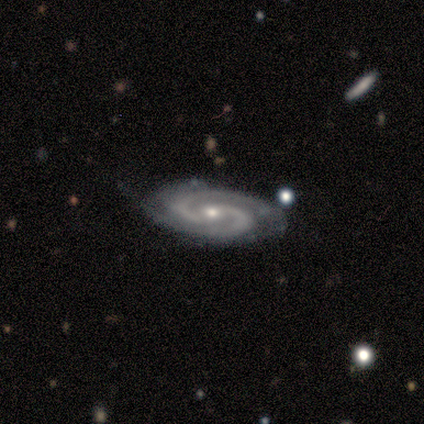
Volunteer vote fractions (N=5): Q: Smooth or featured?
A: featured or disk (80%); runner-up: smooth (20%)
Q: Edge-on disk?
A: no (100%)
Q: Bar?
A: no (75%); runner-up: weak (25%)
Q: Spiral arms?
A: yes (100%)
Q: Spiral winding?
A: medium (75%); runner-up: tight (25%)
Q: Spiral arm count?
A: 2 (100%)
Q: Bulge size?
A: moderate (50%); tied with: small (50%)
Q: Merging?
A: none (60%); runner-up: minor disturbance (20%)